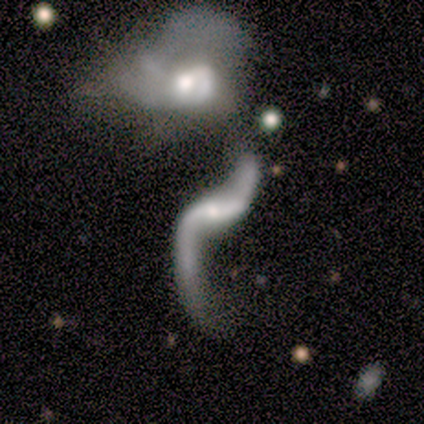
Smooth or featured? 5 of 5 (100%) said featured or disk. Edge-on disk? 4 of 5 (80%) said no. Bar? 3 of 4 (75%) said no. Spiral arms? 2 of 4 (50%, tied with no) said yes. Spiral winding? 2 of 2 (100%) said loose. Spiral arm count? 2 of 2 (100%) said 2. Bulge size? 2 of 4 (50%) said moderate. Merging? 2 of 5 (40%, tied with major disturbance) said none.